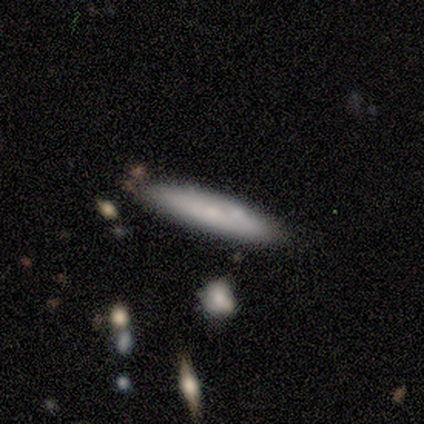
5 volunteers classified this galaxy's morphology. This appears to be a smooth galaxy with no disk features (80%) that is cigar-shaped (100%). Merging: none (80%).